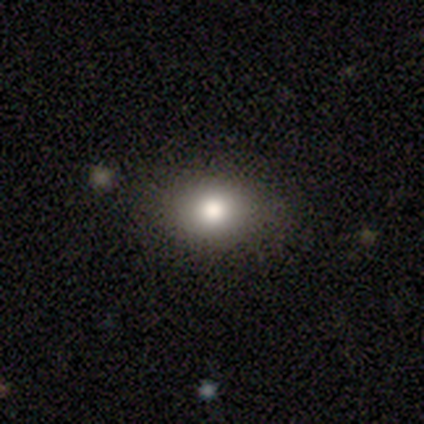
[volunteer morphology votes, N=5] A smooth galaxy with no disk features (80%) that is in between round and cigar-shaped (100%). Merging: none (100%).